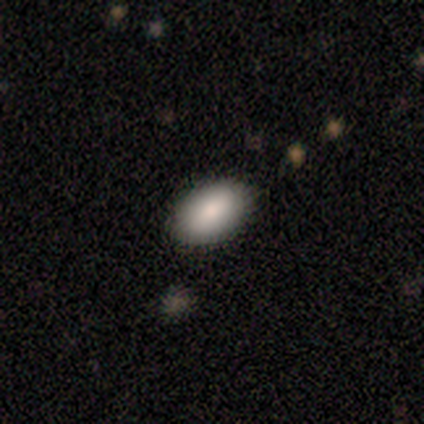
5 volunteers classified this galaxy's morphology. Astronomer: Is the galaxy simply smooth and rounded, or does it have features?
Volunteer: smooth — 80%.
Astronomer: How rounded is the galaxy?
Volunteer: in between — 100%.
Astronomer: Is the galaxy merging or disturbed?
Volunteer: none — 100%.